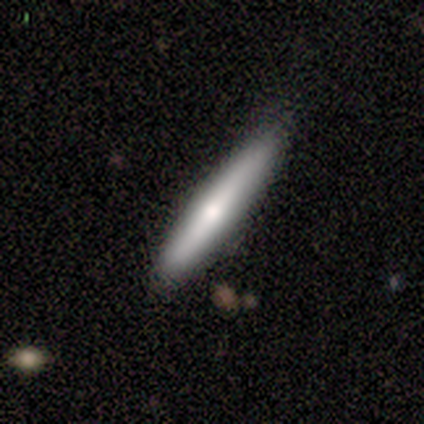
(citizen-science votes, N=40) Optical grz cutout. It shows a smooth galaxy with no disk features (68%) that is cigar-shaped (96%). Merging: none (90%).